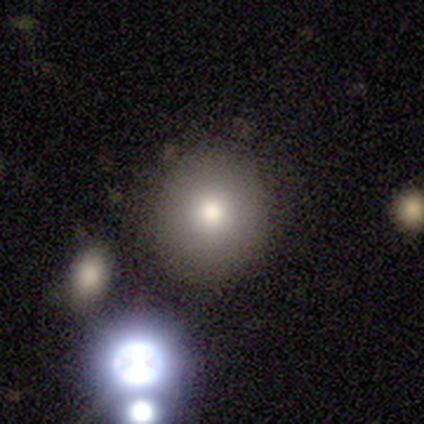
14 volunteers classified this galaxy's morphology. This appears to be a smooth galaxy with no disk features (93%) that is round (100%). Merging: none (86%).